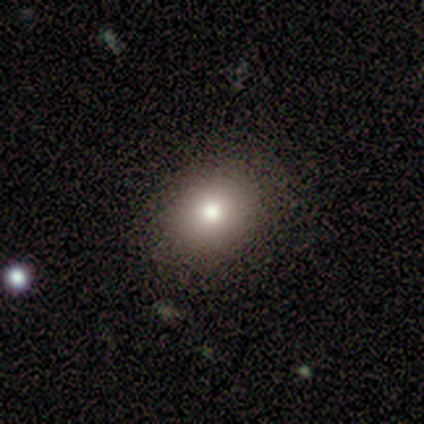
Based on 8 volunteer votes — smooth_or_featured: smooth (p=0.88) [alt: star or artifact p=0.12]
how_rounded: in between (p=0.57) [alt: round p=0.29]
merging: none (p=0.86) [alt: minor disturbance p=0.14]